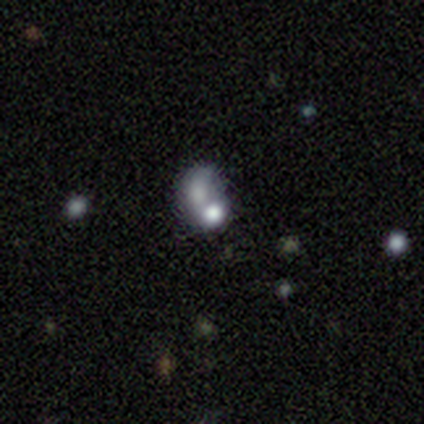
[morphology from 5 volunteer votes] smooth 80%, star or artifact 20%, featured or disk 0%. Down the decision tree: how rounded — round (75%); merging — merger (100%).